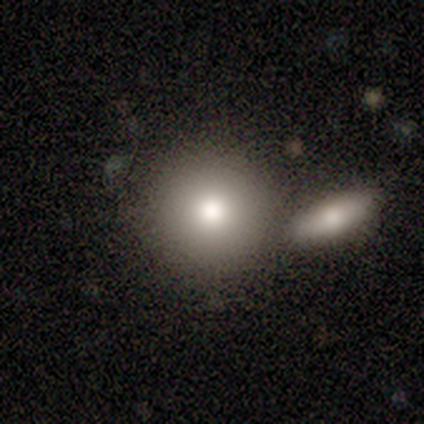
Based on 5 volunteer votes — This is likely a featured or disk galaxy (60%). It is clearly not viewed edge-on (100%). Bar: clearly no (100%). Spiral arm pattern: clearly no (100%). Central bulge: likely moderate (67%). Merging: likely none (60%).